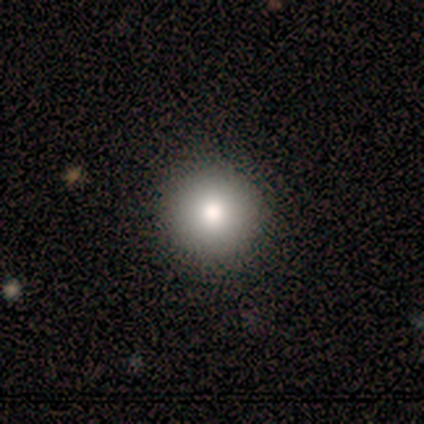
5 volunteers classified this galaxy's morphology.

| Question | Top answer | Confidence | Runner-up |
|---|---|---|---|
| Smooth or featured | smooth | 100% | — |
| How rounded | round | 80% | in between (20%) |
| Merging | none | 80% | major disturbance (20%) |